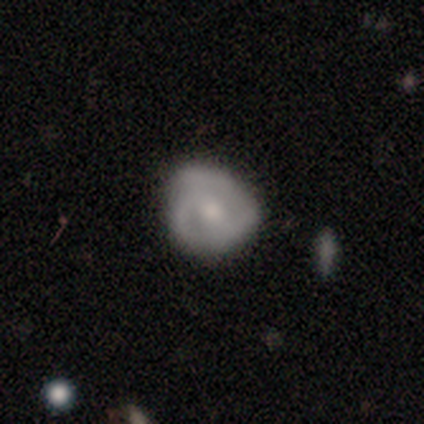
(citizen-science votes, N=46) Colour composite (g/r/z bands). It shows a featured or disk galaxy (59%) with no bar (52%), tight (41%) spiral arms (68%) and a small central bulge (52%). Merging: none (70%).